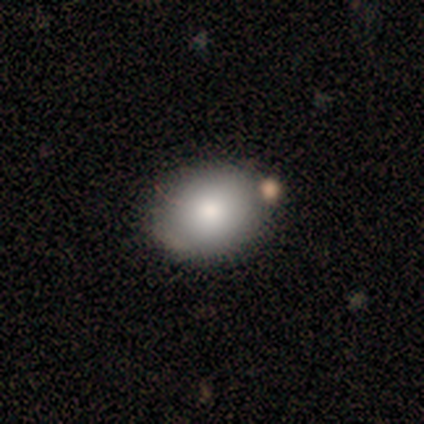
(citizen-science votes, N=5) This appears to be a smooth galaxy with no disk features (60%) that is in between round and cigar-shaped (67%). Merging: none (80%).